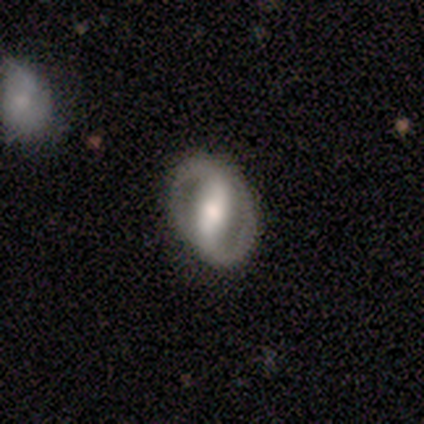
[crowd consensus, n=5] Volunteers were most divided on "spiral winding" (2-way tie): tight: 50%, medium: 50%, loose: 0%; "bulge size" (2-way tie): large: 40%, moderate: 40%, small: 20%, dominant: 0%, none: 0%. More confident: smooth or featured — featured or disk (100%); edge-on disk — no (100%); spiral arm count — 2 (100%); merging — none (100%); spiral arms — yes (80%); bar — strong (60%).